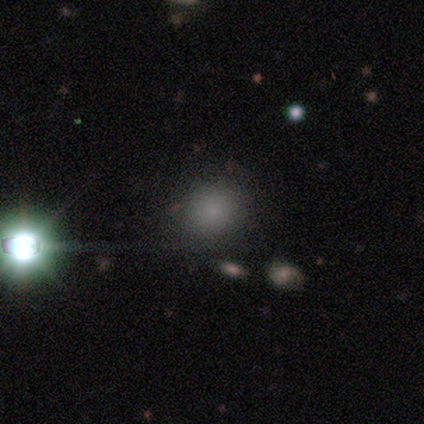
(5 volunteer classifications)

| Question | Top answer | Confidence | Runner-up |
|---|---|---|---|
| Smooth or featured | star or artifact | 60% | smooth (40%) |